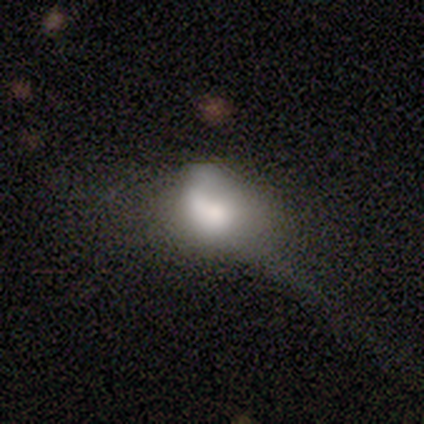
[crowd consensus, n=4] This appears to be a smooth galaxy with no disk features (75%) that is in between round and cigar-shaped (100%). Merging: major disturbance (75%).